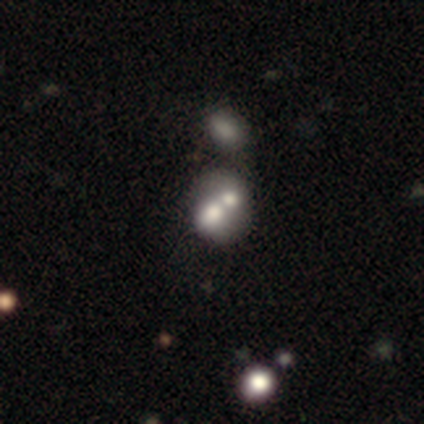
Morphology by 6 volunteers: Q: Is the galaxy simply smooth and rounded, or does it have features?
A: smooth — 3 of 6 (50%).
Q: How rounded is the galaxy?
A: round — 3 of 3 (100%).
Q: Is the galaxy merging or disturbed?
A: merger — 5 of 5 (100%).